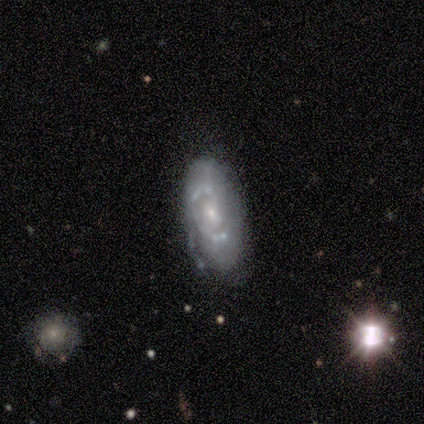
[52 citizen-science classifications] Volunteers were most divided on "merging" (2-way tie): none: 40%, minor disturbance: 40%, major disturbance: 13%, merger: 6%. Remaining: edge-on disk — no (100%); bulge size — small (74%); smooth or featured — featured or disk (73%); spiral arms — yes (66%); bar — no (61%); spiral arm count — 2 (52%); spiral winding — tight (48%).